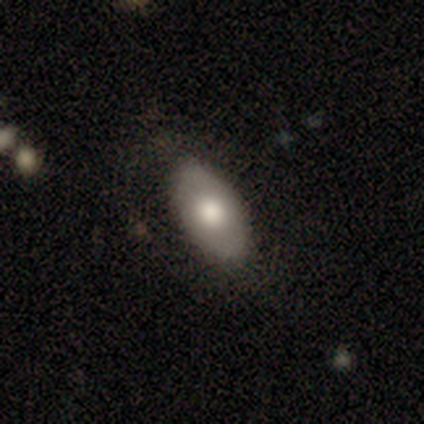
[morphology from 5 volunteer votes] A smooth galaxy with no disk features (80%) that is in between round and cigar-shaped (100%).

Vote fractions:
- Smooth or featured? smooth: 80% / featured or disk: 20% / star or artifact: 0%
- How rounded? in between: 100% / round: 0% / cigar-shaped: 0%
- Merging? none: 80% / minor disturbance: 20% / major disturbance: 0% / merger: 0%